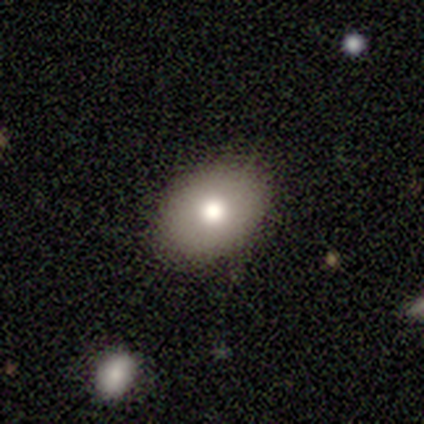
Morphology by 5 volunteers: smooth 100%, featured or disk 0%, star or artifact 0%. Down the decision tree: how rounded — in between (60%); merging — none (60%).